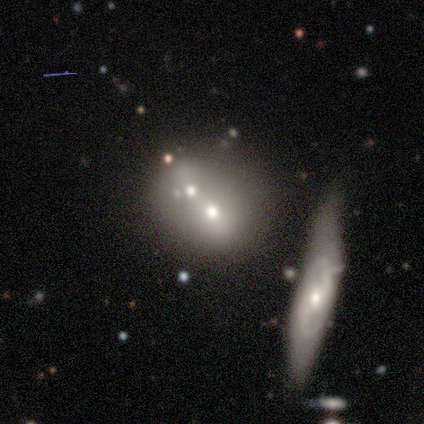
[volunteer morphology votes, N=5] A smooth galaxy with no disk features (40%, tied with featured or disk) that is round (50%, tied with in between). Merging: merger (100%).